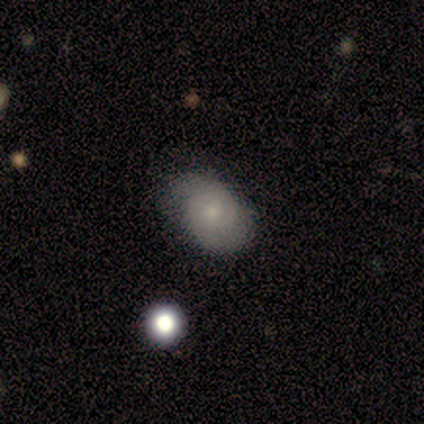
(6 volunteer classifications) Smooth or featured: smooth — 50% (tied with featured or disk — 50%)
How rounded: round — 67% (in between — 33%)
Merging: none — 100%